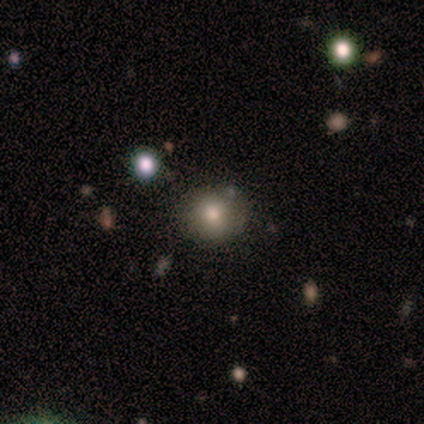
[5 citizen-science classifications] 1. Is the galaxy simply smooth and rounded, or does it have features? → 60% smooth, 20% featured or disk, 20% star or artifact.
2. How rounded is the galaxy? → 100% round, 0% in between, 0% cigar-shaped.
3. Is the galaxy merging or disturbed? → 75% none, 25% merger, 0% minor disturbance, 0% major disturbance.